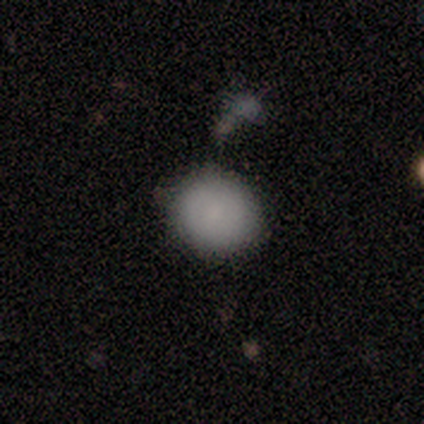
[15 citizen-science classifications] A smooth galaxy with no disk features (80%) that is round (75%). Merging: none (64%).